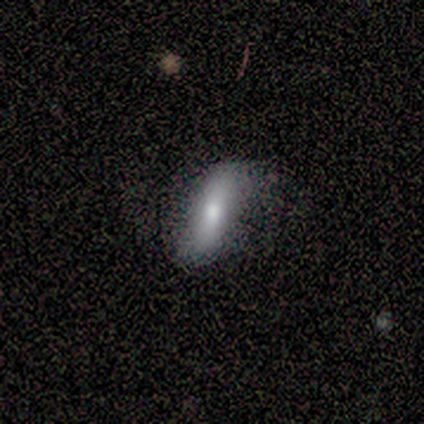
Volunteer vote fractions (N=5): smooth_or_featured: smooth (p=0.80) [alt: featured or disk p=0.20]
how_rounded: cigar-shaped (p=0.75) [alt: in between p=0.25]
merging: none (p=0.80) [alt: minor disturbance p=0.20]